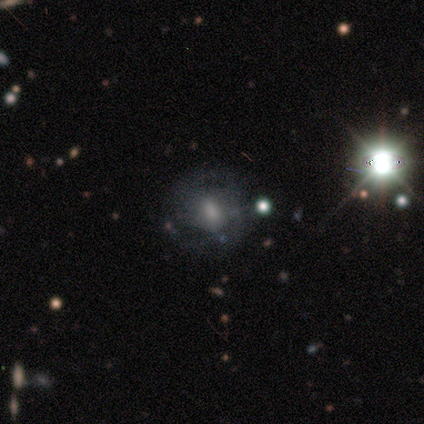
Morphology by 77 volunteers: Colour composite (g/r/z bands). It shows a featured or disk galaxy (53%) with no bar (56%), tight (43%) spiral arms (51%) and a moderate central bulge (39%). Merging: none (55%).